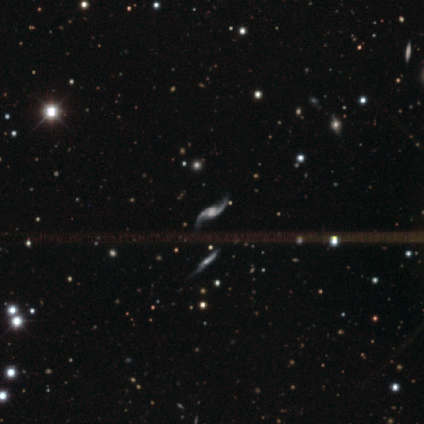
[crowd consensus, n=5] A featured or disk galaxy (80%) with a weak bar (50%, tied with no), 2 (100%) loose (100%) spiral arms (100%) and a moderate central bulge (50%).

Vote fractions:
- Smooth or featured? featured or disk: 80% / smooth: 20% / star or artifact: 0%
- Edge-on disk? no: 100% / yes: 0%
- Bar? weak: 50% (tied) / no: 50% (tied) / strong: 0%
- Spiral arms? yes: 100% / no: 0%
- Spiral winding? loose: 100% / tight: 0% / medium: 0%
- Spiral arm count? 2: 100% / 1: 0% / 3: 0% / 4: 0% / more than 4: 0% / can't tell: 0%
- Bulge size? moderate: 50% / large: 25% / small: 25% / dominant: 0% / none: 0%
- Merging? none: 100% / minor disturbance: 0% / major disturbance: 0% / merger: 0%